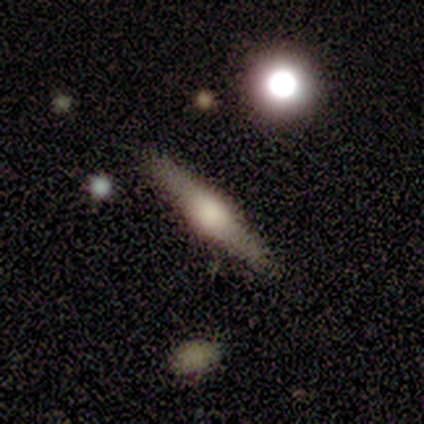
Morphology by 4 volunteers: Smooth or featured: featured or disk — 75% (smooth — 25%)
Edge-on disk: yes — 100%
Edge-on bulge: rounded — 100%
Merging: none — 100%